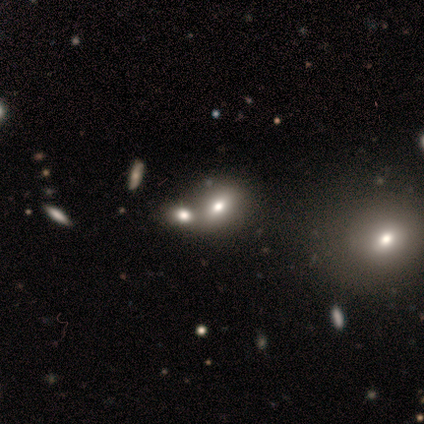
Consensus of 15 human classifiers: A smooth galaxy with no disk features (53%) that is round (50%, tied with in between). Merging: merger (70%).